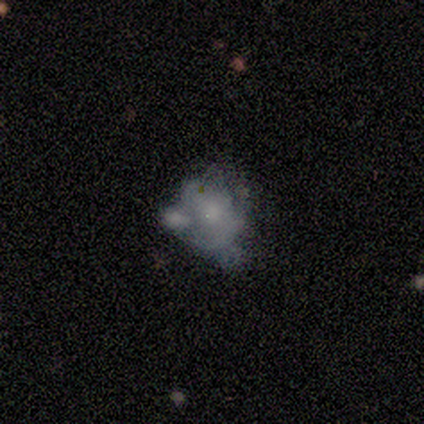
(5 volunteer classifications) Overall: featured or disk (80%). Edge-on disk: no (100%). Bar: no (100%). Spiral arms: no (75%). Bulge size: small (75%). Merging: none (50%; major disturbance 25%).